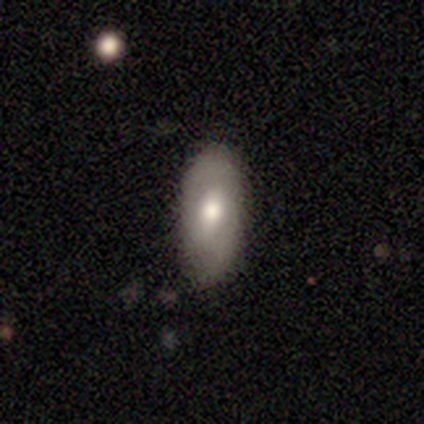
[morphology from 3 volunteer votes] Smooth or featured? featured or disk (67%)
Edge-on disk? yes (50%, tied with no)
Edge-on bulge? rounded (100%)
Merging? none (100%)